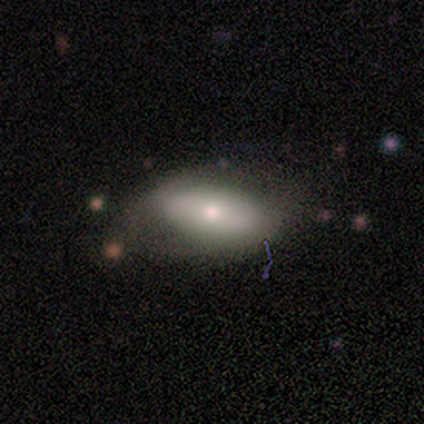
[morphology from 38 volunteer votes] Smooth or featured? smooth (50%)
How rounded? in between (89%)
Merging? none (69%)